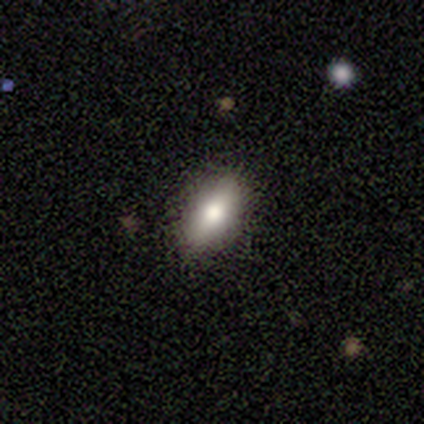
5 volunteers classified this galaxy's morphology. Smooth or featured? 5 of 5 (100%) said smooth. How rounded? 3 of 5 (60%) said in between. Merging? 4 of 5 (80%) said none.